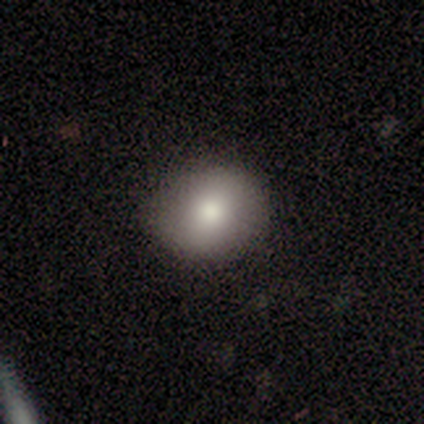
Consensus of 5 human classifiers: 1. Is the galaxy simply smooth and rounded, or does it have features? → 60% smooth, 40% star or artifact, 0% featured or disk.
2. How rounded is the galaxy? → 100% round, 0% in between, 0% cigar-shaped.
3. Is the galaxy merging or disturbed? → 67% none, 33% minor disturbance, 0% major disturbance, 0% merger.